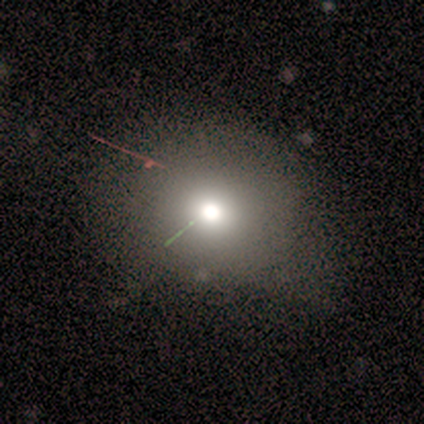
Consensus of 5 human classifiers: Smooth or featured?
  - smooth: 80% *
  - featured or disk: 20%
  - star or artifact: 0%
How rounded?
  - round: 50% * (tied)
  - in between: 50% * (tied)
  - cigar-shaped: 0%
Merging?
  - none: 40% * (tied)
  - minor disturbance: 40% * (tied)
  - merger: 20%
  - major disturbance: 0%